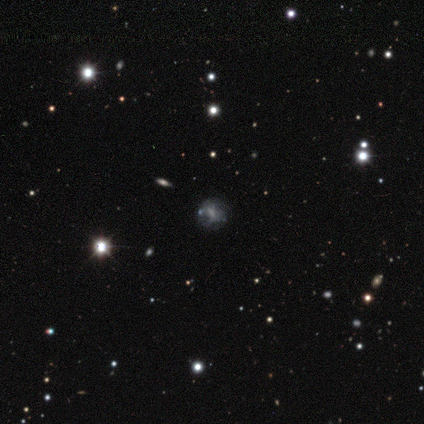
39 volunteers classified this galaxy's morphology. This is possibly a featured or disk galaxy (51%). It is clearly not viewed edge-on (100%). Bar: likely no (65%). Spiral arm pattern: likely yes (65%). Spiral arm count: clearly can't tell (85%). Spiral winding: possibly medium (54%). Central bulge: possibly none (50%). Merging: likely none (76%).